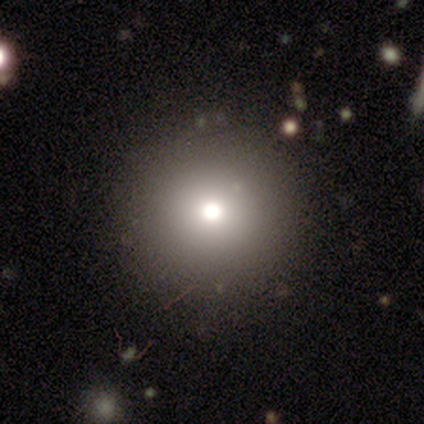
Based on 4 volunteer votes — Q: Smooth or featured?
A: star or artifact (75%); runner-up: smooth (25%)